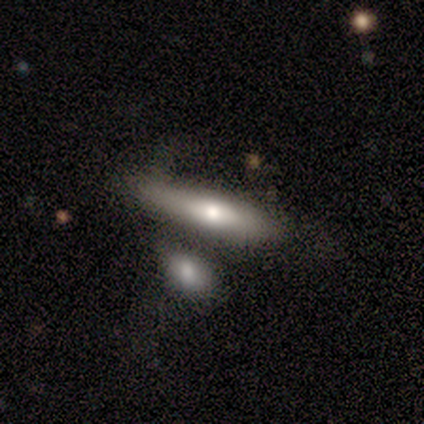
Smooth or featured?
  - featured or disk: 40% * (tied)
  - star or artifact: 40% * (tied)
  - smooth: 20%
Edge-on disk?
  - yes: 100% *
  - no: 0%
Edge-on bulge?
  - rounded: 100% *
  - boxy: 0%
  - none: 0%
Merging?
  - none: 100% *
  - minor disturbance: 0%
  - major disturbance: 0%
  - merger: 0%